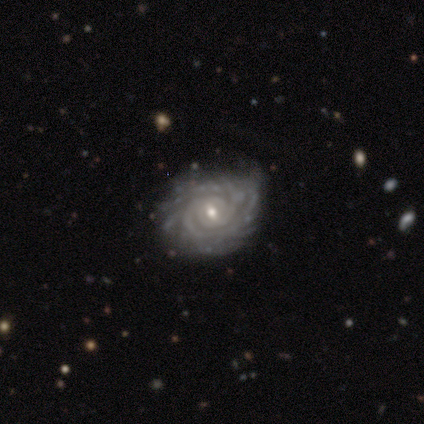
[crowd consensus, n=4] Q: Smooth or featured?
A: featured or disk (75%); runner-up: smooth (25%)
Q: Edge-on disk?
A: no (100%)
Q: Bar?
A: strong (33%); tied with: weak (33%); no (33%)
Q: Spiral arms?
A: yes (100%)
Q: Spiral winding?
A: tight (100%)
Q: Spiral arm count?
A: 4 (33%); tied with: more than 4 (33%); can't tell (33%)
Q: Bulge size?
A: moderate (67%); runner-up: small (33%)
Q: Merging?
A: none (100%)